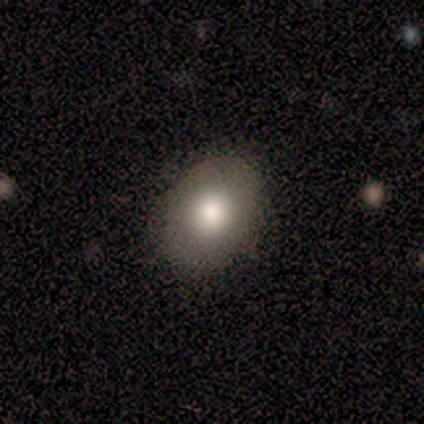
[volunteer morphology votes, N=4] A smooth galaxy with no disk features (75%) that is in between round and cigar-shaped (67%). Merging: none (100%).